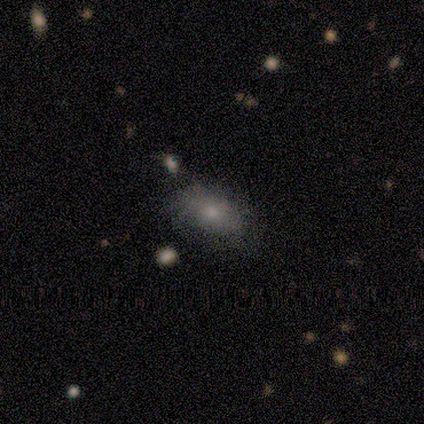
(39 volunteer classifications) Smooth or featured?
  - smooth: 67% *
  - featured or disk: 26%
  - star or artifact: 8%
How rounded?
  - in between: 88% *
  - round: 8%
  - cigar-shaped: 4%
Merging?
  - none: 42% *
  - minor disturbance: 19%
  - major disturbance: 11%
  - merger: 3%